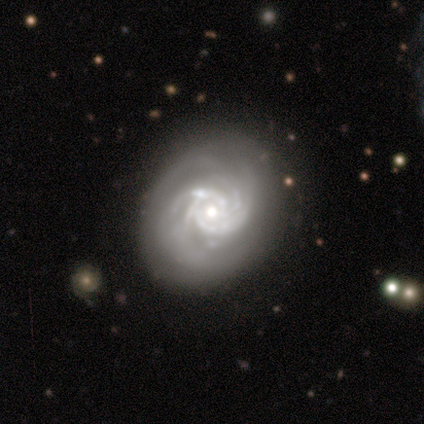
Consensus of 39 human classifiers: Overall: featured or disk (97%). Edge-on disk: no (100%). Bar: no (79%). Spiral arms: yes (97%). Spiral arm count: 4 (30%, tied with can't tell). Spiral winding: tight (76%). Bulge size: moderate (63%; small 32%). Merging: none (77%).